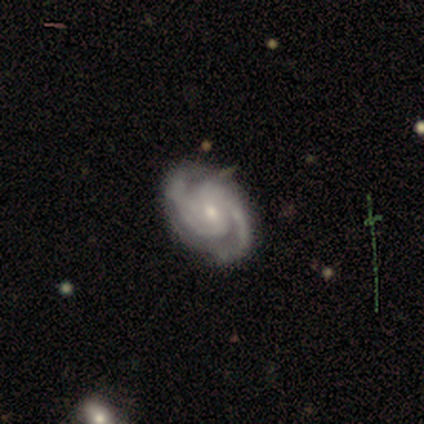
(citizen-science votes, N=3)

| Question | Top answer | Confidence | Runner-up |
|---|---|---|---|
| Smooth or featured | featured or disk | 100% | — |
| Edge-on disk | no | 100% | — |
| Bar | no | 67% | strong (33%) |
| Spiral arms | yes | 67% | no (33%) |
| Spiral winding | tight | 100% | — |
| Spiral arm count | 2 | 100% | — |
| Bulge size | moderate | 100% | — |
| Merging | none | 67% | minor disturbance (33%) |